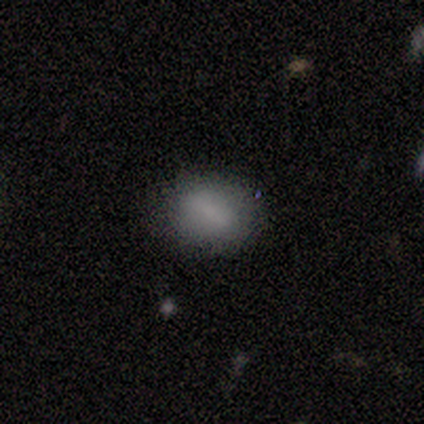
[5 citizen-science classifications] Morphology: type=smooth (60%); roundness=in between (67%); merging=none (100%).